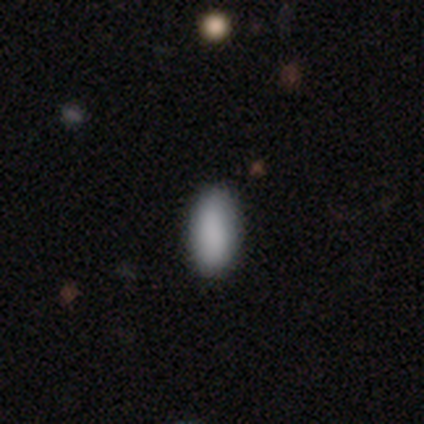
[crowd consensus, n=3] smooth_or_featured: smooth (p=1.00)
how_rounded: in between (p=1.00)
merging: none (p=1.00)